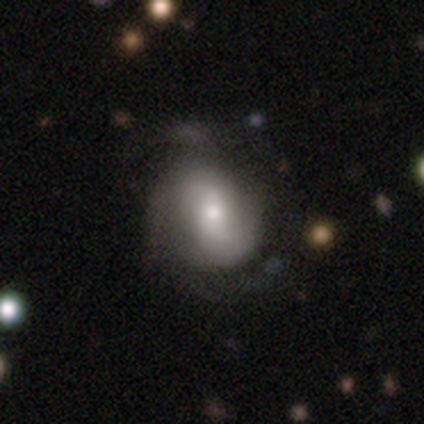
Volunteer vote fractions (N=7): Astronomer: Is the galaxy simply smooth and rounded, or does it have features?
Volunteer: featured or disk — 86%.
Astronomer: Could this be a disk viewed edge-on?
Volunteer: no — 100%.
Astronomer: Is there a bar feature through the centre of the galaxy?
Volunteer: weak — 50% (runner-up: no, 33%).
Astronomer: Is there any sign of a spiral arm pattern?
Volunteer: yes — 100%.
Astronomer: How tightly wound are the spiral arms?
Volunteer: medium — 67%.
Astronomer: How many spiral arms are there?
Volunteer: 2 — 67%.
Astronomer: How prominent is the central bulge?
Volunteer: moderate — 50% (runner-up: small, 33%).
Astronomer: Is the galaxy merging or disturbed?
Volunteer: none — 57%.